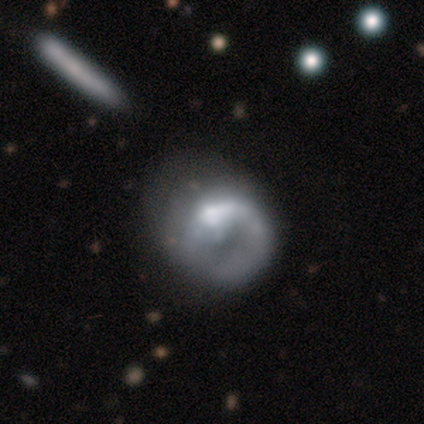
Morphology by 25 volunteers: A featured or disk galaxy (60%) with no bar (87%), 1 (78%) medium (56%) spiral arms (60%) and a moderate central bulge (47%). Merging: merger (23%).